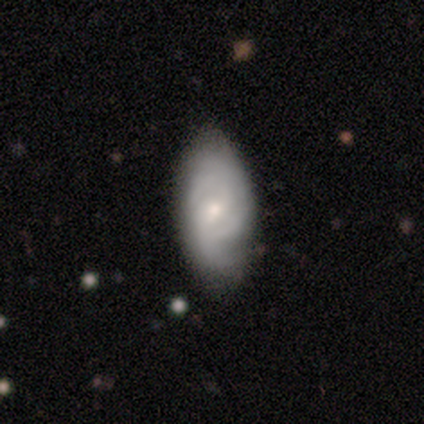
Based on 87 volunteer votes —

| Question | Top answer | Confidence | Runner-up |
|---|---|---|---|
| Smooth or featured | featured or disk | 60% | smooth (38%) |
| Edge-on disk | no | 96% | yes (4%) |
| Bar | no | 56% | weak (40%) |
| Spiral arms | yes | 92% | no (8%) |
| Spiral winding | tight | 54% | medium (37%) |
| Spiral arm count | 3 | 30% | tied: can't tell (30%) |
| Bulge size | small | 60% | moderate (36%) |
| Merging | none | 69% | minor disturbance (24%) |